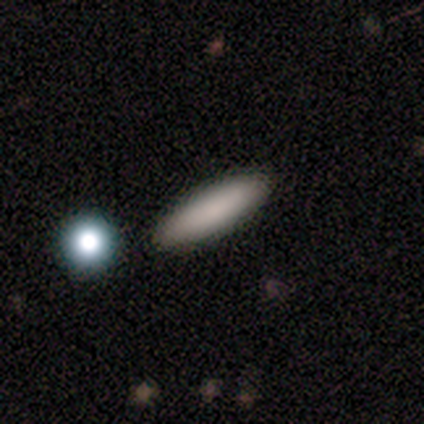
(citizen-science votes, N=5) Morphology: type=smooth (100%); roundness=cigar-shaped (100%); merging=none (100%).